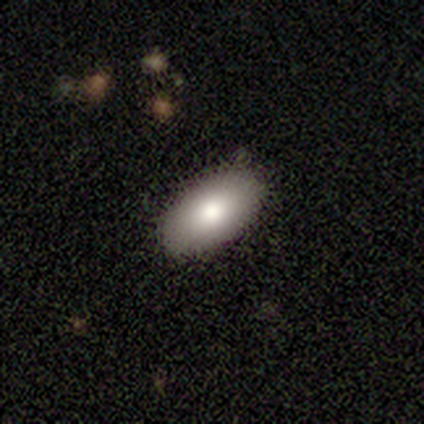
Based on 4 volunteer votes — This appears to be a smooth galaxy with no disk features (50%, tied with star or artifact) that is in between round and cigar-shaped (100%). Merging: none (100%).